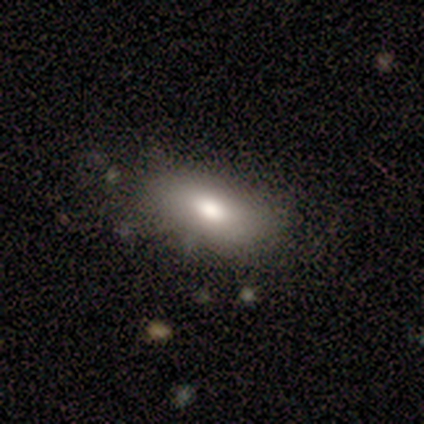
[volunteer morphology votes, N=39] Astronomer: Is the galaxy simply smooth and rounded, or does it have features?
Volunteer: smooth — 85%.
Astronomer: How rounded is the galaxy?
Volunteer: in between — 79%.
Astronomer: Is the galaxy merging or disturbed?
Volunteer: none — 76%.